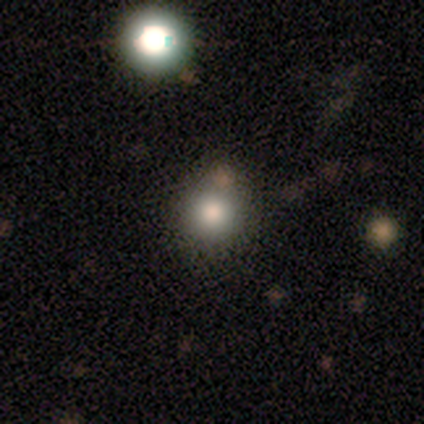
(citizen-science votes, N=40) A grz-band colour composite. It shows a smooth galaxy with no disk features (68%) that is round (93%). Merging: none (88%).